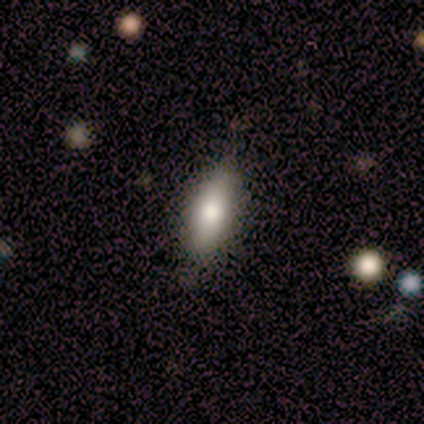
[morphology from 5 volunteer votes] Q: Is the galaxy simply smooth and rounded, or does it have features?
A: smooth — 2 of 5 (40%, tied with featured or disk).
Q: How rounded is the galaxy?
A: in between — 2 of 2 (100%).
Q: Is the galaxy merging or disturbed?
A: none — 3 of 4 (75%).